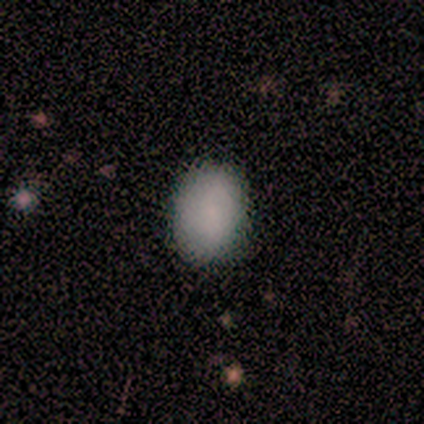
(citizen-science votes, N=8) Overall: smooth (100%). How rounded: in between (88%). Merging: none (88%).